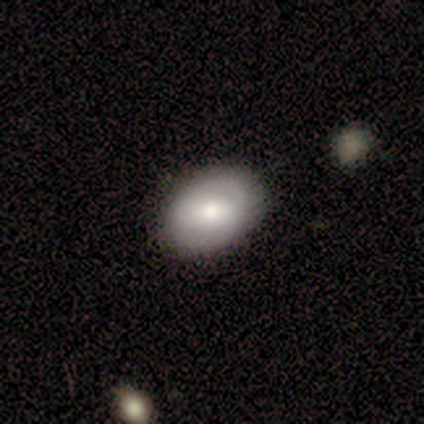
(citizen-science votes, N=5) A smooth galaxy with no disk features (60%) that is in between round and cigar-shaped (67%).

Vote fractions:
- Smooth or featured? smooth: 60% / featured or disk: 40% / star or artifact: 0%
- How rounded? in between: 67% / round: 33% / cigar-shaped: 0%
- Merging? none: 100% / minor disturbance: 0% / major disturbance: 0% / merger: 0%